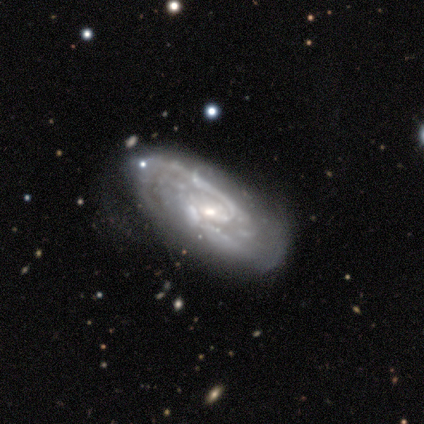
This is clearly a featured or disk galaxy (80%). It is likely not viewed edge-on (75%). Bar: likely no (67%). Spiral arm pattern: clearly yes (100%). Spiral arm count: clearly 2 (100%). Spiral winding: likely medium (67%). Central bulge: likely small (67%). Merging: clearly none (80%).